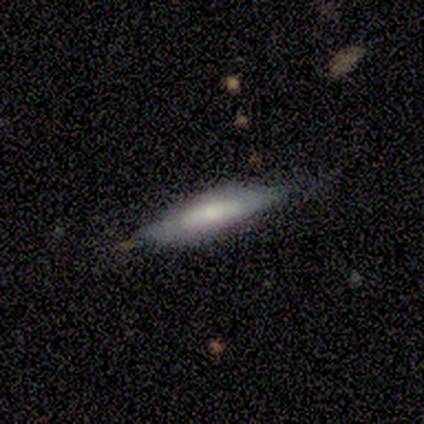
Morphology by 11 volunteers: Smooth or featured? 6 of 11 (55%) said smooth. How rounded? 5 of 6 (83%) said cigar-shaped. Merging? 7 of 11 (64%) said none.